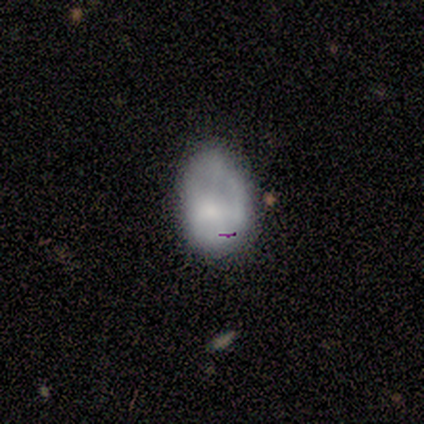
smooth-or-featured: smooth: 80% | featured or disk: 20% | star or artifact: 0%
  how-rounded: in between: 100% | round: 0% | cigar-shaped: 0%
  merging: minor disturbance: 60% | major disturbance: 40% | none: 0% | merger: 0%